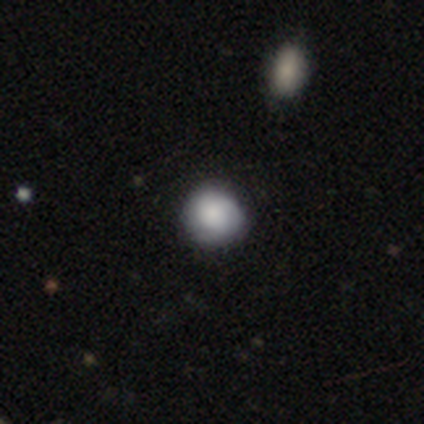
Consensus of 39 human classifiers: Smooth or featured? smooth (72%)
How rounded? round (96%)
Merging? none (70%)